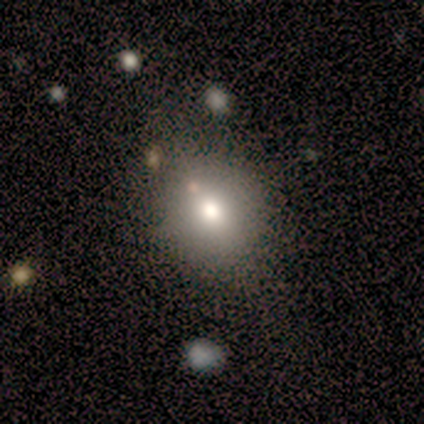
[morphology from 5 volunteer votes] Overall: smooth (80%). How rounded: round (50%, tied with in between). Merging: none (100%).